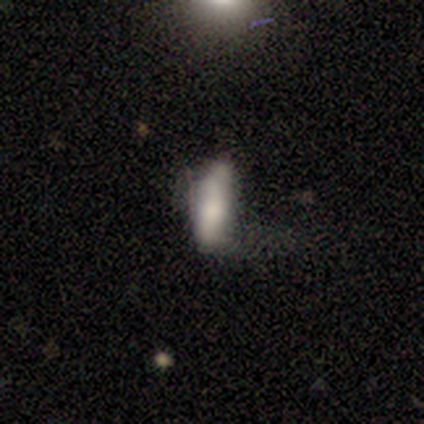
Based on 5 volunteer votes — smooth_or_featured: smooth (p=0.80) [alt: star or artifact p=0.20]
how_rounded: in between (p=0.75) [alt: cigar-shaped p=0.25]
merging: minor disturbance (p=0.75) [alt: none p=0.25]